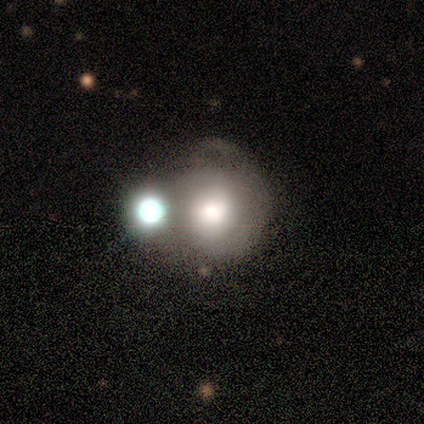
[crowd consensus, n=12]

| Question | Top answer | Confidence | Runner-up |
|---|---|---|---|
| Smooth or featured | smooth | 42% | tied: featured or disk (42%) |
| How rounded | round | 100% | — |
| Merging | minor disturbance | 30% | tied: merger (30%) |